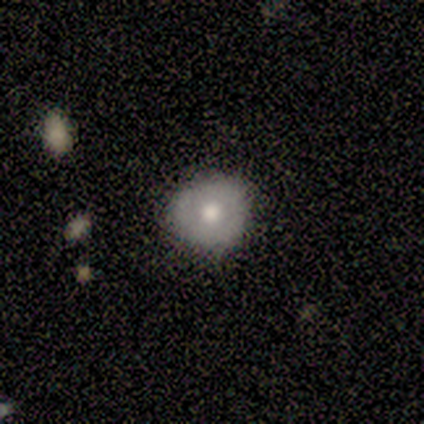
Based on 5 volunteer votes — Smooth or featured: smooth — 40% (tied with featured or disk — 40%)
How rounded: round — 100%
Merging: none — 100%